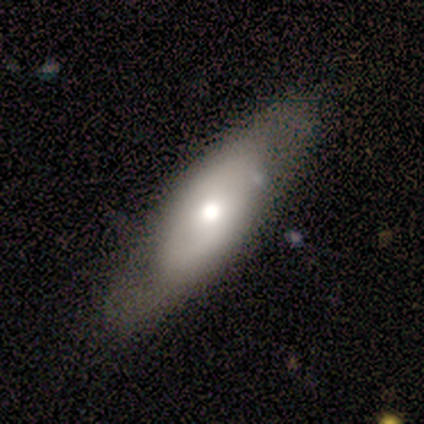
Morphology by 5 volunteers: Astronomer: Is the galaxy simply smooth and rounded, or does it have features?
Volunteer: smooth — 100%.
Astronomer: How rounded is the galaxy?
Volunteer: in between — 60% (runner-up: cigar-shaped, 40%).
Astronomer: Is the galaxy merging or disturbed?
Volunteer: none — 80%.